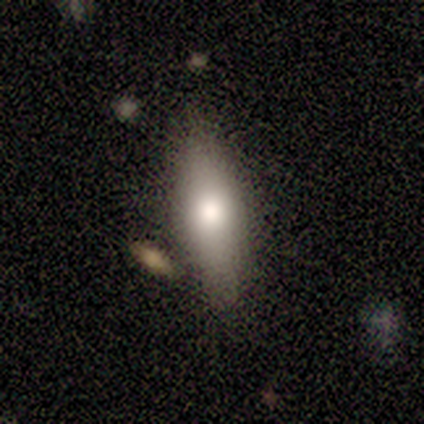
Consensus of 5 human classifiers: This is clearly a smooth galaxy (80%). How rounded: possibly in between (50%, tied with cigar-shaped). Merging: clearly none (80%).